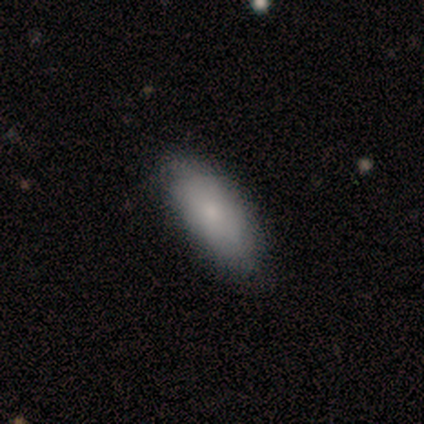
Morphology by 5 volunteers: Smooth or featured?
  - smooth: 80% *
  - star or artifact: 20%
  - featured or disk: 0%
How rounded?
  - in between: 50% * (tied)
  - cigar-shaped: 50% * (tied)
  - round: 0%
Merging?
  - minor disturbance: 50% *
  - none: 25%
  - major disturbance: 25%
  - merger: 0%